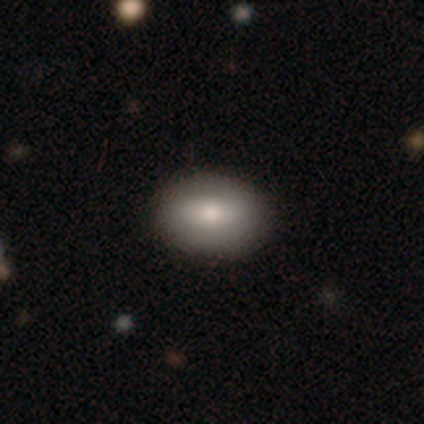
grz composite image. It shows a smooth galaxy with no disk features (66%) that is in between round and cigar-shaped (80%). Merging: none (81%).